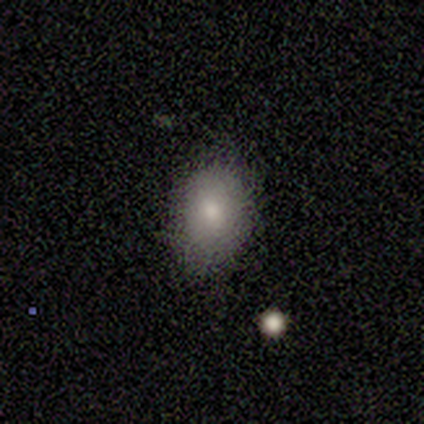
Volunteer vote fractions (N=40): Smooth or featured? 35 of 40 (88%) said smooth. How rounded? 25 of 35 (71%) said in between. Merging? 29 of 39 (74%) said none.